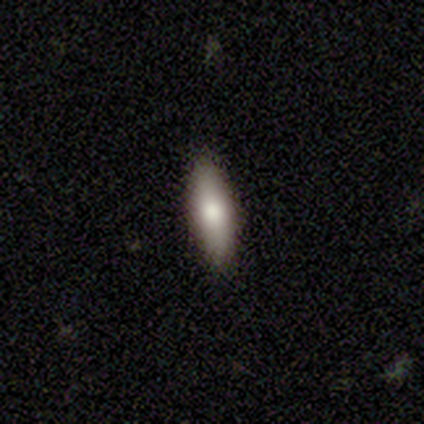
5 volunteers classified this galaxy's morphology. Smooth or featured? 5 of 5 (100%) said smooth. How rounded? 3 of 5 (60%) said cigar-shaped. Merging? 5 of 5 (100%) said none.